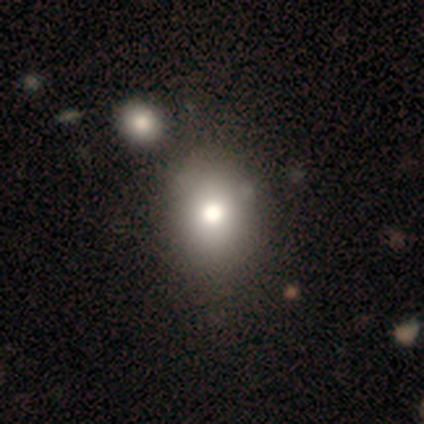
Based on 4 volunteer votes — Smooth or featured? smooth (75%)
How rounded? in between (67%)
Merging? none (50%, tied with minor disturbance)